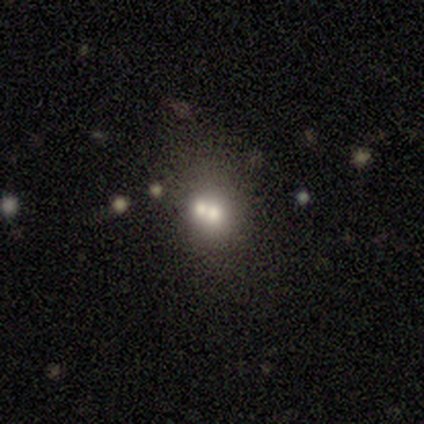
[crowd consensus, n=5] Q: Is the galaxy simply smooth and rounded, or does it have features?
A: smooth — 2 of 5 (40%, tied with featured or disk).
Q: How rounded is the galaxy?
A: round — 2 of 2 (100%).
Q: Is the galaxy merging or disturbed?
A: none — 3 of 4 (75%).